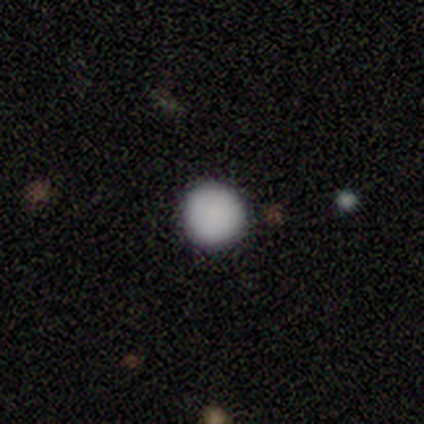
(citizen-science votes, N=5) Volunteers were most divided on "smooth or featured": smooth: 80%, star or artifact: 20%, featured or disk: 0%. More confident: how rounded — round (100%); merging — none (100%).